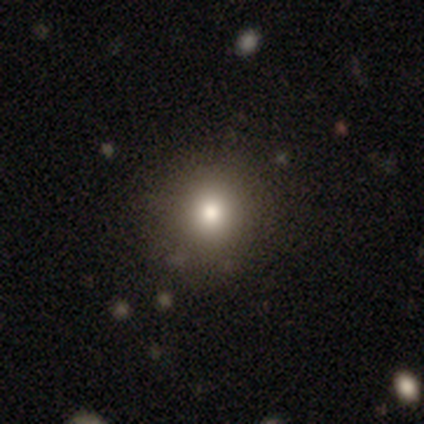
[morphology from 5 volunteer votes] This is marginally a smooth galaxy (40%, tied with featured or disk). How rounded: clearly round (100%). Merging: clearly none (100%).